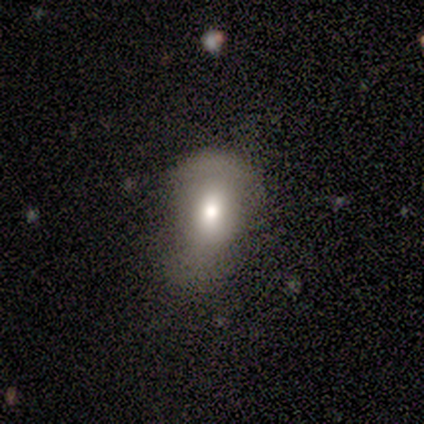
This appears to be a smooth galaxy with no disk features (60%) that is round (67%). Merging: minor disturbance (50%).